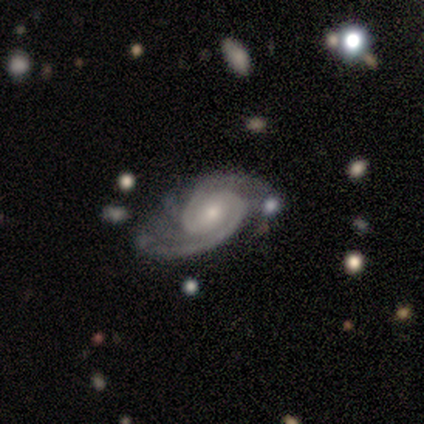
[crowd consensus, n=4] smooth_or_featured: featured or disk (p=1.00)
disk_edge_on: no (p=0.75) [alt: yes p=0.25]
bar: no (p=1.00)
has_spiral_arms: yes (p=1.00)
spiral_winding: medium (p=1.00)
spiral_arm_count: 2 (p=1.00)
bulge_size: small (p=1.00)
merging: none (p=0.50) [alt: minor disturbance p=0.25]